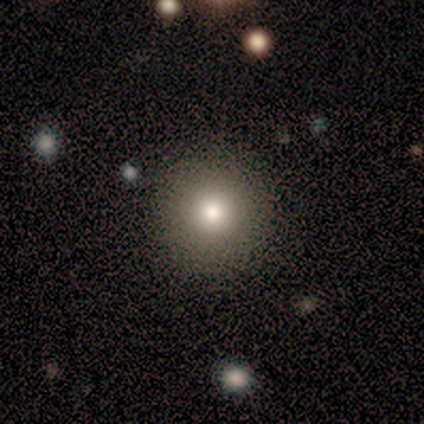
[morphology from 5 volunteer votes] smooth 100%, featured or disk 0%, star or artifact 0%. Down the decision tree: how rounded — round (100%); merging — none (80%).